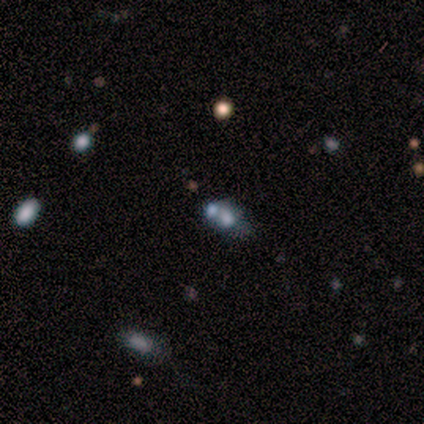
smooth_or_featured: smooth (p=0.60) [alt: featured or disk p=0.20]
how_rounded: round (p=0.67) [alt: in between p=0.33]
merging: merger (p=1.00)